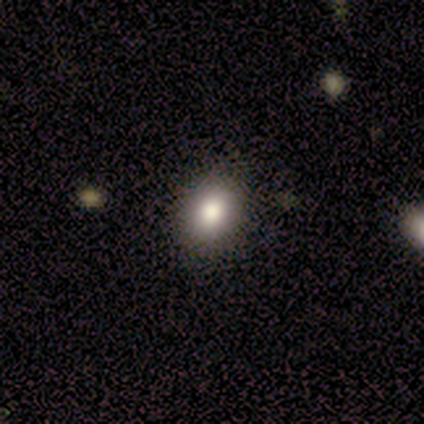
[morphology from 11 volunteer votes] smooth-or-featured: smooth: 82% | star or artifact: 18% | featured or disk: 0%
  how-rounded: in between: 56% | round: 44% | cigar-shaped: 0%
  merging: none: 78% | minor disturbance: 22% | major disturbance: 0% | merger: 0%